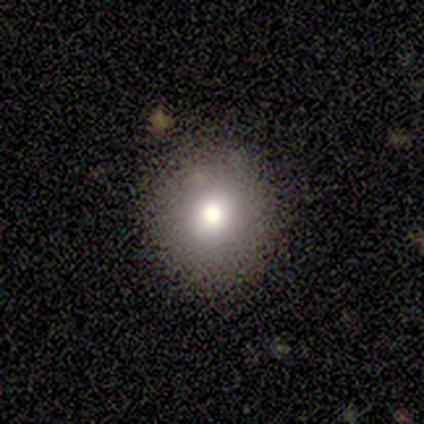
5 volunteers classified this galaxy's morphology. smooth 60%, featured or disk 20%, star or artifact 20%. Down the decision tree: how rounded — round (100%); merging — none (75%).